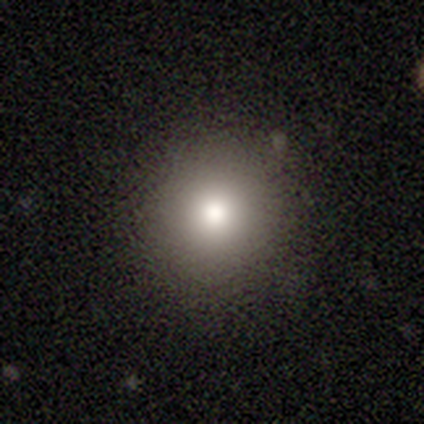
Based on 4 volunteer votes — Overall: star or artifact (75%).